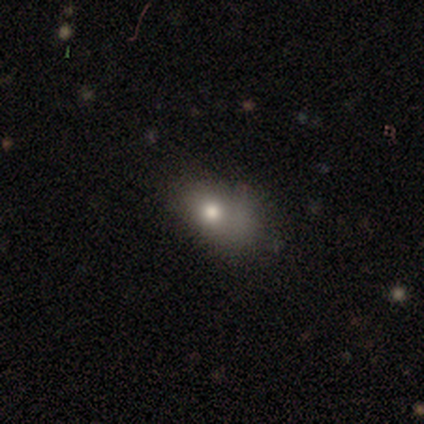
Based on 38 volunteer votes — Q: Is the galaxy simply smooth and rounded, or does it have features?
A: smooth — 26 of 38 (68%).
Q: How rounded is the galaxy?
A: in between — 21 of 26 (81%).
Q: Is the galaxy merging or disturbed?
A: minor disturbance — 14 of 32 (44%).